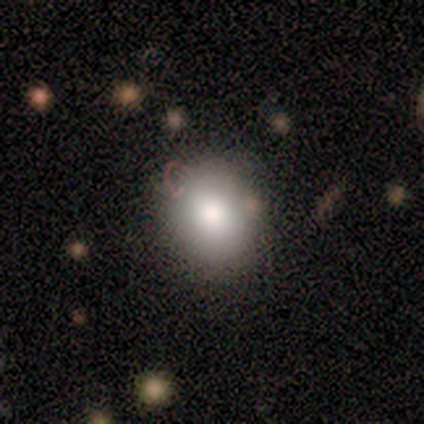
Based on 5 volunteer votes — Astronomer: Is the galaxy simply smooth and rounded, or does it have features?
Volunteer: smooth — 80%.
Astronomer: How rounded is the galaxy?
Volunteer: round — 50%, tied with in between at 50%.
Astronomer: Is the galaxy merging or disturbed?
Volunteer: none — 100%.